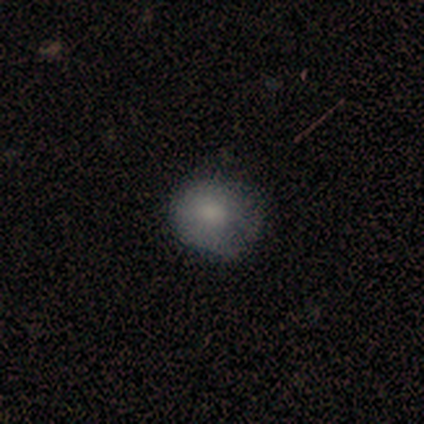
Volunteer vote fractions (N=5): Smooth or featured?
  - smooth: 80% *
  - featured or disk: 20%
  - star or artifact: 0%
How rounded?
  - round: 75% *
  - in between: 25%
  - cigar-shaped: 0%
Merging?
  - minor disturbance: 60% *
  - none: 40%
  - major disturbance: 0%
  - merger: 0%